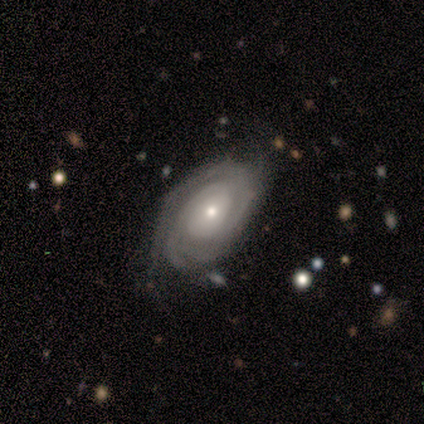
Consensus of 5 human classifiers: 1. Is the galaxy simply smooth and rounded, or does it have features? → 100% featured or disk, 0% smooth, 0% star or artifact.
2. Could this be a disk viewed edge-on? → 100% no, 0% yes.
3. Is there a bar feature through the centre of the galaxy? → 80% no, 20% weak, 0% strong.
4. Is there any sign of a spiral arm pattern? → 100% yes, 0% no.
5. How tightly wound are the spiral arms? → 80% tight, 20% medium, 0% loose.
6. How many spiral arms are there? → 40% can't tell, 20% 2, 20% 3, 20% more than 4, 0% 1, 0% 4.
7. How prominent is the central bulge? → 60% small, 40% moderate, 0% dominant, 0% large, 0% none.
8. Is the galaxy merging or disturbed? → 60% minor disturbance, 40% none, 0% major disturbance, 0% merger.